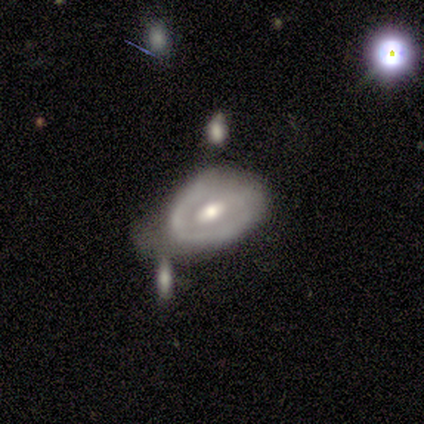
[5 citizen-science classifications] A featured or disk galaxy (60%) with a weak bar (67%), 1 (50%, tied with can't tell) tight (100%) spiral arms (67%) and a moderate central bulge (67%).

Vote fractions:
- Smooth or featured? featured or disk: 60% / smooth: 40% / star or artifact: 0%
- Edge-on disk? no: 100% / yes: 0%
- Bar? weak: 67% / no: 33% / strong: 0%
- Spiral arms? yes: 67% / no: 33%
- Spiral winding? tight: 100% / medium: 0% / loose: 0%
- Spiral arm count? 1: 50% (tied) / can't tell: 50% (tied) / 2: 0% / 3: 0% / 4: 0% / more than 4: 0%
- Bulge size? moderate: 67% / small: 33% / dominant: 0% / large: 0% / none: 0%
- Merging? minor disturbance: 40% (tied) / major disturbance: 40% (tied) / merger: 20% / none: 0%